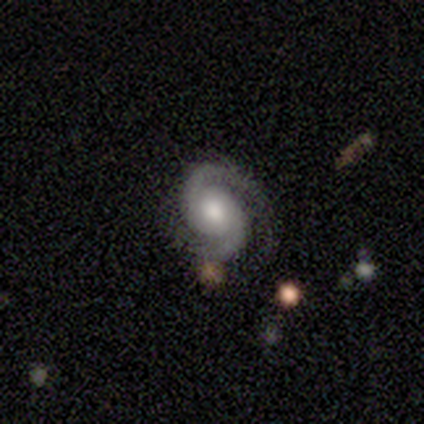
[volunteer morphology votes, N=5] A featured or disk galaxy (100%) with no bar (100%), 2 (100%) medium (40%, tied with loose) spiral arms (100%) and a moderate central bulge (80%). Merging: none (80%).